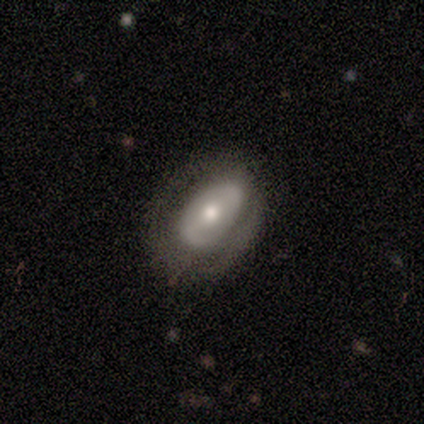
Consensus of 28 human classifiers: Smooth or featured? 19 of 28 (68%) said featured or disk. Edge-on disk? 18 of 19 (95%) said no. Bar? 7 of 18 (39%) said weak. Spiral arms? 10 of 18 (56%) said no. Bulge size? 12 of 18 (67%) said moderate. Merging? 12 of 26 (46%) said none.